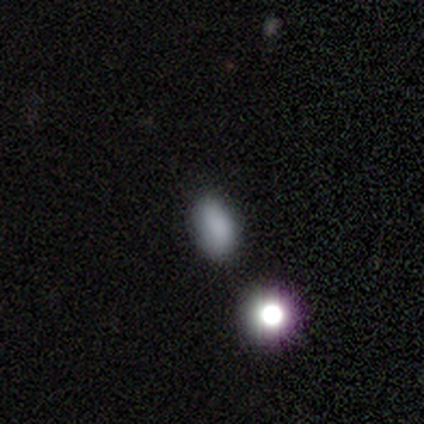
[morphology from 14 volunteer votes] smooth-or-featured: smooth: 64% | star or artifact: 36% | featured or disk: 0%
  how-rounded: in between: 89% | round: 11% | cigar-shaped: 0%
  merging: none: 56% | minor disturbance: 44% | major disturbance: 0% | merger: 0%